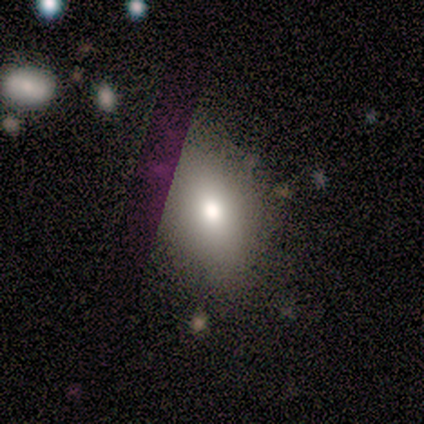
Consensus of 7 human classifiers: Smooth or featured? smooth (71%)
How rounded? round (60%)
Merging? none (40%, tied with minor disturbance)